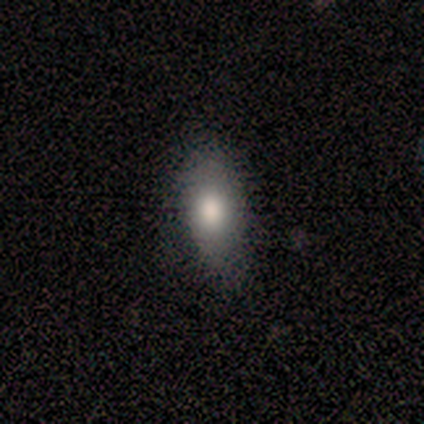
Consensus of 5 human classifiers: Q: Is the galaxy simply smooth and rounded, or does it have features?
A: smooth — 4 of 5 (80%).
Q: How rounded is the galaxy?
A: in between — 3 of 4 (75%).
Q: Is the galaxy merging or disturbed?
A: minor disturbance — 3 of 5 (60%).